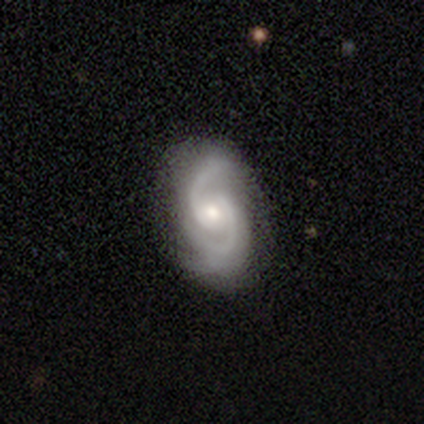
A featured or disk galaxy (92%) with no bar (54%), 2 (81%) medium (50%) spiral arms (97%) and a moderate central bulge (70%). Merging: none (59%).